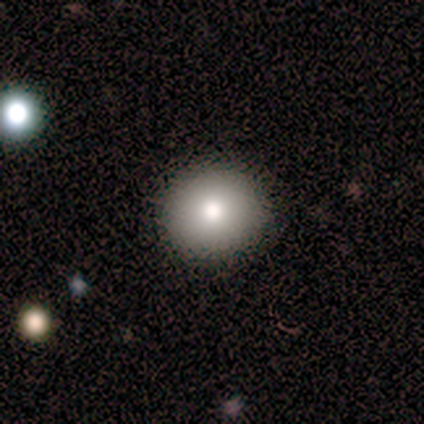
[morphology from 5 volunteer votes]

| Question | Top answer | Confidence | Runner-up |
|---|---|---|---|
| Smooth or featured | smooth | 100% | — |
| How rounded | round | 80% | in between (20%) |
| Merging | none | 100% | — |